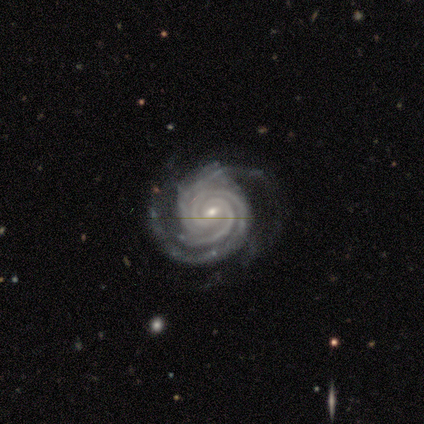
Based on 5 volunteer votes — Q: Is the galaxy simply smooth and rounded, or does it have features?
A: featured or disk — 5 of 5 (100%).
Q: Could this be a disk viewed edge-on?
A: no — 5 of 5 (100%).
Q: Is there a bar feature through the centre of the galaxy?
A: weak — 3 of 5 (60%).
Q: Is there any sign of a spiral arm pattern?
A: yes — 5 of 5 (100%).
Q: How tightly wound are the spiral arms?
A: tight — 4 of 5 (80%).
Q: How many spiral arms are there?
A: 2 — 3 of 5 (60%).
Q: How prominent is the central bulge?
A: small — 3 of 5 (60%).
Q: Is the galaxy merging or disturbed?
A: none — 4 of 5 (80%).